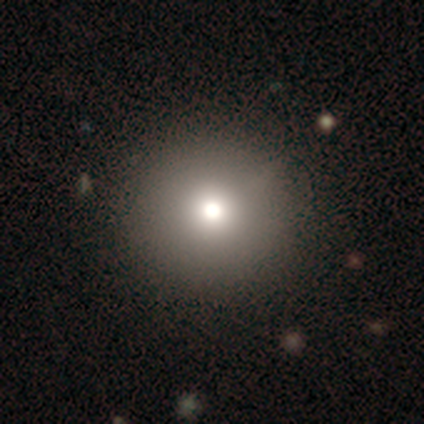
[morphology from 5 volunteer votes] Volunteers were most divided on "smooth or featured": star or artifact: 60%, smooth: 40%, featured or disk: 0%.